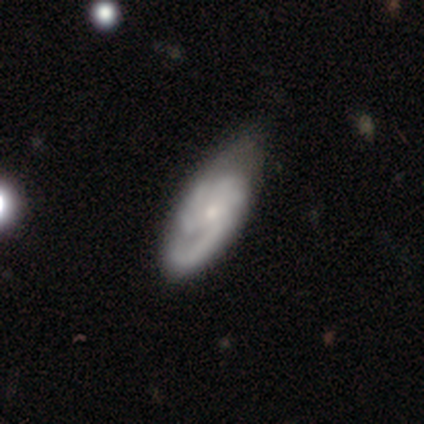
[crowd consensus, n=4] A smooth galaxy with no disk features (50%, tied with featured or disk) that is in between round and cigar-shaped (100%).

Vote fractions:
- Smooth or featured? smooth: 50% (tied) / featured or disk: 50% (tied) / star or artifact: 0%
- How rounded? in between: 100% / round: 0% / cigar-shaped: 0%
- Merging? minor disturbance: 75% / none: 25% / major disturbance: 0% / merger: 0%